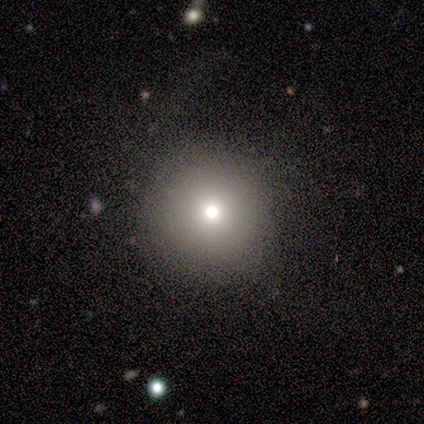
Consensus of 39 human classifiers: Smooth or featured? 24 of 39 (62%) said smooth. How rounded? 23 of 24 (96%) said round. Merging? 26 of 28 (93%) said none.